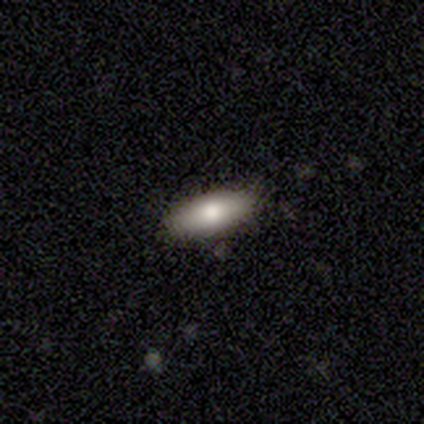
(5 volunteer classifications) This is clearly a smooth galaxy (80%). How rounded: likely in between (75%). Merging: clearly none (80%).